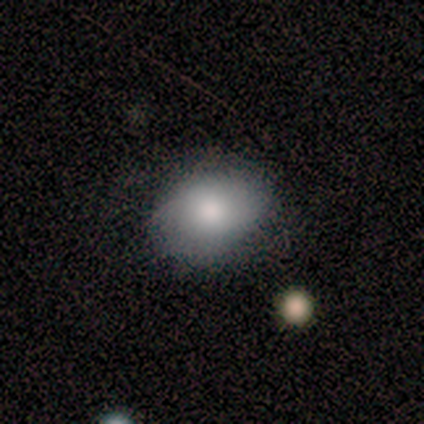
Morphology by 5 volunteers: Overall: smooth (100%). How rounded: in between (80%). Merging: none (80%).